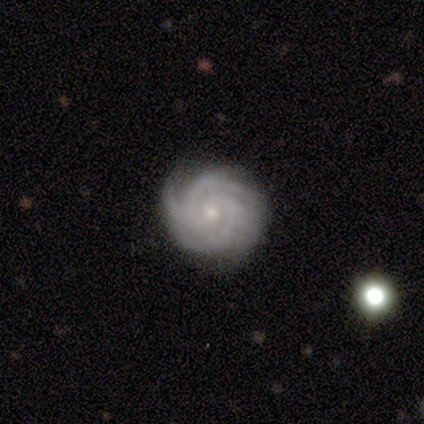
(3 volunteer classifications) Overall: featured or disk (67%; star or artifact 33%). Edge-on disk: no (100%). Bar: no (100%). Spiral arms: yes (100%). Spiral arm count: 4 (50%, tied with can't tell). Spiral winding: tight (100%). Bulge size: moderate (50%, tied with small). Merging: none (100%).